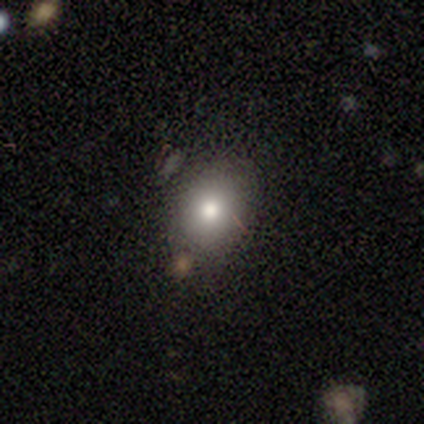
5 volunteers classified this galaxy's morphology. smooth 80%, star or artifact 20%, featured or disk 0%. Down the decision tree: how rounded — round (75%); merging — none (75%).